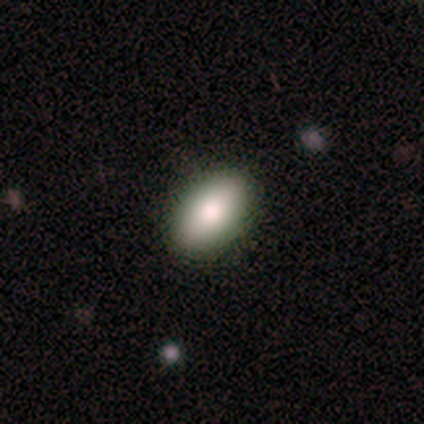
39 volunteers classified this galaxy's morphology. smooth_or_featured: smooth (p=0.77) [alt: featured or disk p=0.15]
how_rounded: in between (p=0.93) [alt: cigar-shaped p=0.07]
merging: none (p=0.92) [alt: minor disturbance p=0.08]